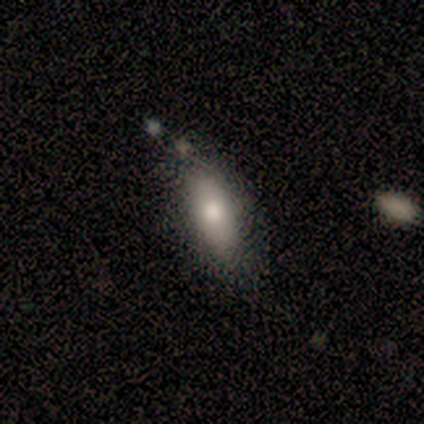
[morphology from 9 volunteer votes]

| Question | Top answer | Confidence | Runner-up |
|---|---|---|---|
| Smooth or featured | smooth | 89% | featured or disk (11%) |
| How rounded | in between | 75% | cigar-shaped (25%) |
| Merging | none | 78% | minor disturbance (22%) |